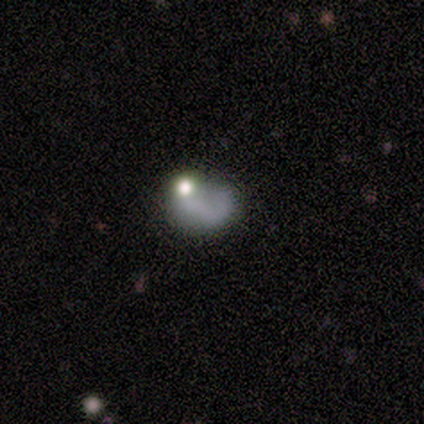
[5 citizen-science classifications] Smooth or featured: featured or disk — 60% (smooth — 20%)
Edge-on disk: no — 67% (yes — 33%)
Bar: no — 100%
Spiral arms: yes — 50% (tied with no — 50%)
Spiral winding: loose — 100%
Spiral arm count: 1 — 100%
Bulge size: moderate — 50% (tied with none — 50%)
Merging: none — 75% (major disturbance — 25%)